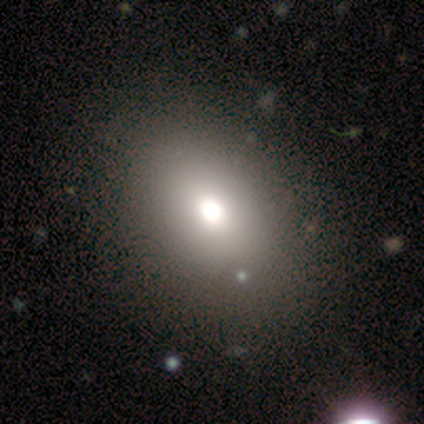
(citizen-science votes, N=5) Smooth or featured?
  - smooth: 80% *
  - star or artifact: 20%
  - featured or disk: 0%
How rounded?
  - in between: 75% *
  - round: 25%
  - cigar-shaped: 0%
Merging?
  - none: 100% *
  - minor disturbance: 0%
  - major disturbance: 0%
  - merger: 0%